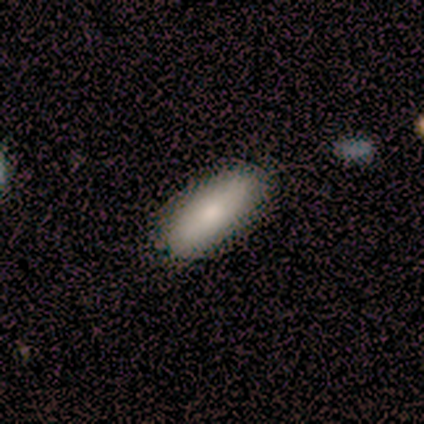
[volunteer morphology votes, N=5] Smooth or featured?
  - smooth: 80% *
  - featured or disk: 20%
  - star or artifact: 0%
How rounded?
  - in between: 50% * (tied)
  - cigar-shaped: 50% * (tied)
  - round: 0%
Merging?
  - none: 100% *
  - minor disturbance: 0%
  - major disturbance: 0%
  - merger: 0%